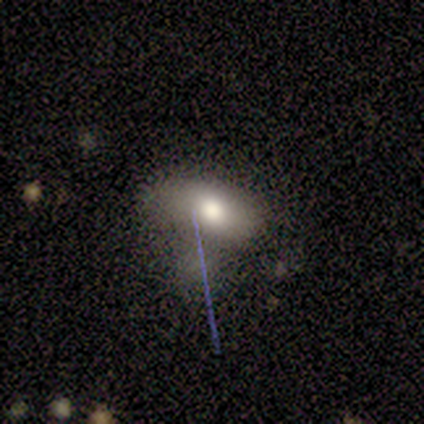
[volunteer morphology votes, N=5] This is clearly a smooth galaxy (100%). How rounded: clearly in between (100%). Merging: marginally merger (40%).